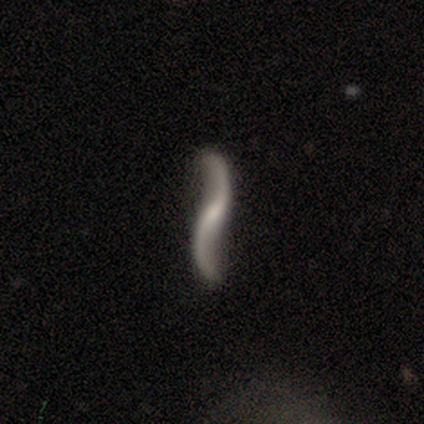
Morphology: type=featured or disk (100%); edge-on=yes (62%); edge-on bulge=none (80%); merging=none (75%).